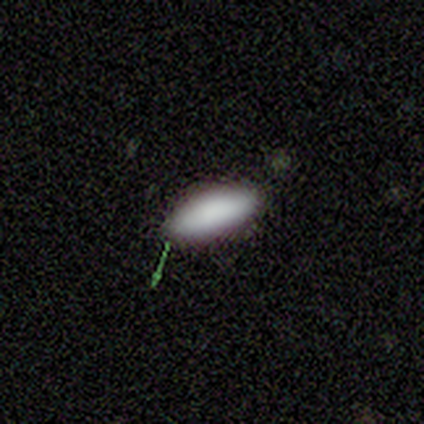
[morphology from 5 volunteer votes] Smooth or featured? smooth (80%)
How rounded? in between (75%)
Merging? none (80%)